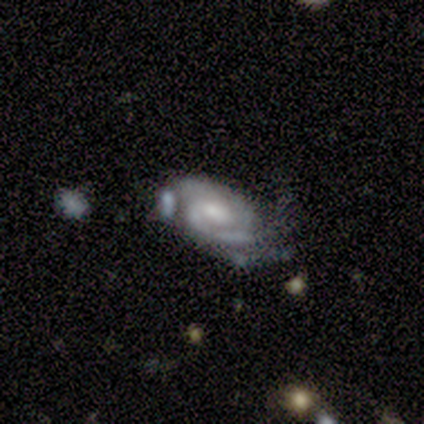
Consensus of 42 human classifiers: A featured or disk galaxy (88%) with no bar (51%), 2 (70%) tight (64%) spiral arms (94%) and a moderate central bulge (40%).

Vote fractions:
- Smooth or featured? featured or disk: 88% / star or artifact: 10% / smooth: 2%
- Edge-on disk? no: 95% / yes: 5%
- Bar? no: 51% / weak: 46% / strong: 3%
- Spiral arms? yes: 94% / no: 6%
- Spiral winding? tight: 64% / medium: 33% / loose: 3%
- Spiral arm count? 2: 70% / 3: 21% / can't tell: 6% / 1: 3% / 4: 0% / more than 4: 0%
- Bulge size? moderate: 40% / small: 31% / large: 20% / none: 9% / dominant: 0%
- Merging? minor disturbance: 37% / major disturbance: 24% / none: 21% / merger: 18%